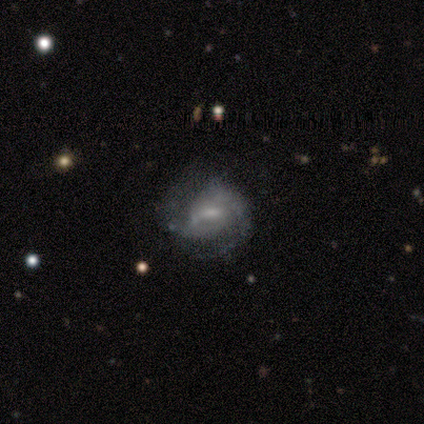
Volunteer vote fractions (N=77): Volunteers were most divided on "merging": none: 29%, minor disturbance: 14%, major disturbance: 11%, merger: 1%. More confident: edge-on disk — no (100%); spiral arms — yes (92%); smooth or featured — featured or disk (83%); spiral arm count — 2 (80%); bar — weak (70%); bulge size — small (58%); spiral winding — medium (51%).